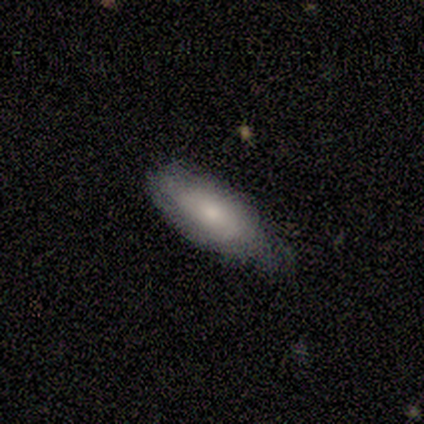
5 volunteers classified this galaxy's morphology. smooth_or_featured: smooth (p=0.60) [alt: featured or disk p=0.40]
how_rounded: in between (p=0.67) [alt: cigar-shaped p=0.33]
merging: none (p=0.60) [alt: minor disturbance p=0.20]